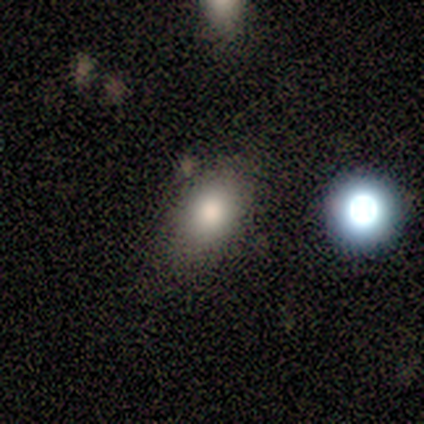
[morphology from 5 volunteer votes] smooth 80%, star or artifact 20%, featured or disk 0%. Down the decision tree: how rounded — in between (75%); merging — none (50%, tied with minor disturbance).